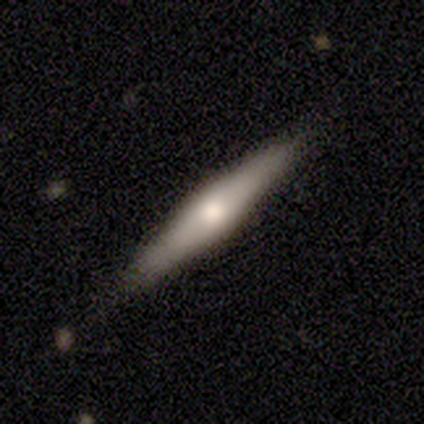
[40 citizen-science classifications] Smooth or featured: smooth — 50% (featured or disk — 48%)
How rounded: cigar-shaped — 90% (in between — 10%)
Merging: none — 85% (minor disturbance — 8%)